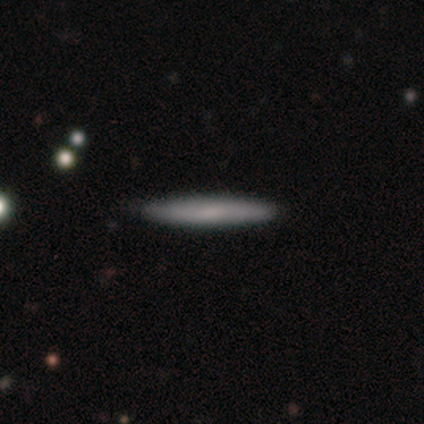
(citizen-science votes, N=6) This is likely a smooth galaxy (67%). How rounded: clearly cigar-shaped (100%). Merging: clearly none (100%).